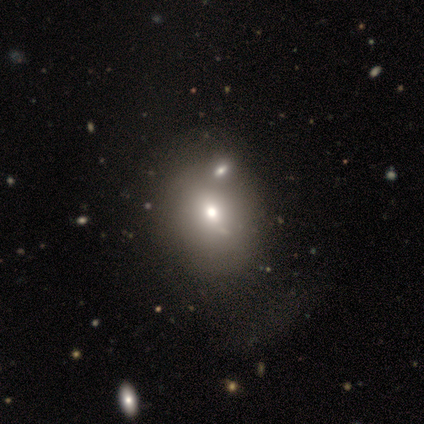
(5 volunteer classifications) Smooth or featured? 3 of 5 (60%) said smooth. How rounded? 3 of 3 (100%) said round. Merging? 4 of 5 (80%) said none.